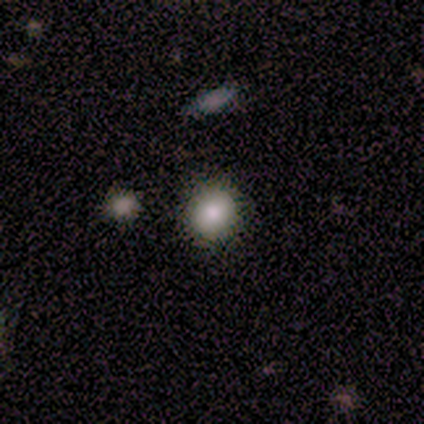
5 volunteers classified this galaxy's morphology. This appears to be a smooth galaxy with no disk features (60%) that is round (67%). Merging: none (60%).